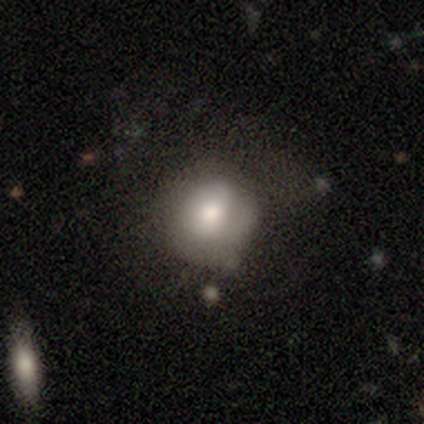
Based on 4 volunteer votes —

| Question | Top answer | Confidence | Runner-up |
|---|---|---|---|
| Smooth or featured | smooth | 75% | featured or disk (25%) |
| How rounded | round | 67% | in between (33%) |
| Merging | none | 50% | tied: minor disturbance (50%) |